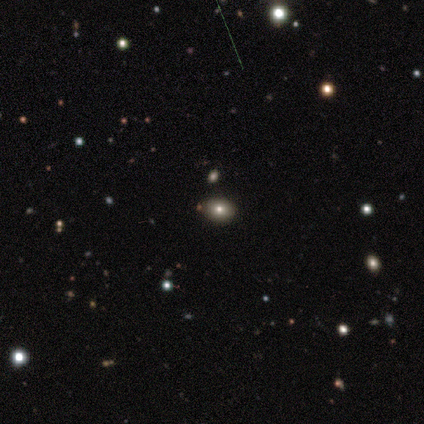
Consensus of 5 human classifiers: smooth_or_featured: smooth (p=0.80) [alt: star or artifact p=0.20]
how_rounded: in between (p=0.75) [alt: round p=0.25]
merging: none (p=0.50) [tied with: merger p=0.50]